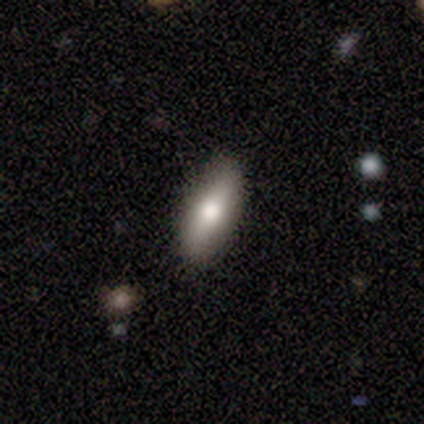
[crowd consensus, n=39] Q: Smooth or featured?
A: smooth (67%); runner-up: featured or disk (28%)
Q: How rounded?
A: in between (65%); runner-up: cigar-shaped (35%)
Q: Merging?
A: none (84%); runner-up: minor disturbance (14%)